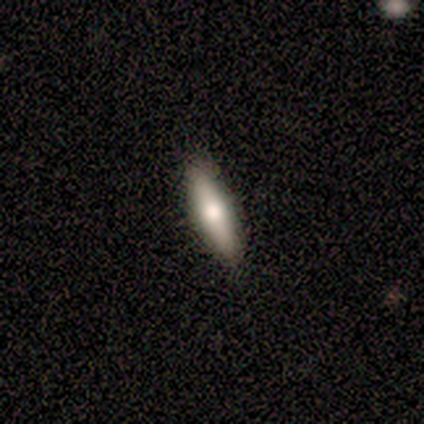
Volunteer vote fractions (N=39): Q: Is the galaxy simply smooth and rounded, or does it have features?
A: smooth — 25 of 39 (64%).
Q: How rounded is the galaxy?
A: in between — 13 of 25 (52%).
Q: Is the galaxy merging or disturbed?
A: none — 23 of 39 (59%).